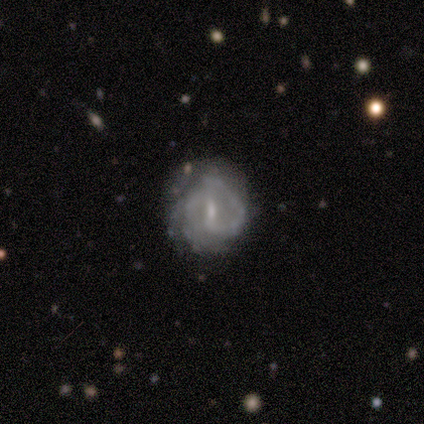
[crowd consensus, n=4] Morphology: type=featured or disk (100%); edge-on=no (100%); bar=no (50%); spiral arms=yes (100%); winding=tight (75%); arm count=can't tell (50%); bulge=moderate (50%); merging=none (50%).